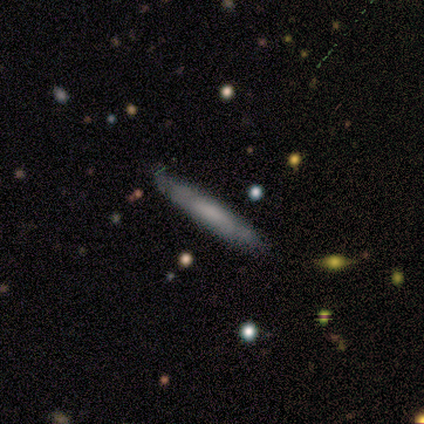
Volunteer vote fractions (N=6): A featured or disk galaxy (67%) viewed edge-on (100%) with no central bulge (50%).

Vote fractions:
- Smooth or featured? featured or disk: 67% / smooth: 33% / star or artifact: 0%
- Edge-on disk? yes: 100% / no: 0%
- Edge-on bulge? none: 50% / boxy: 25% / rounded: 25%
- Merging? none: 67% / minor disturbance: 17% / major disturbance: 17% / merger: 0%